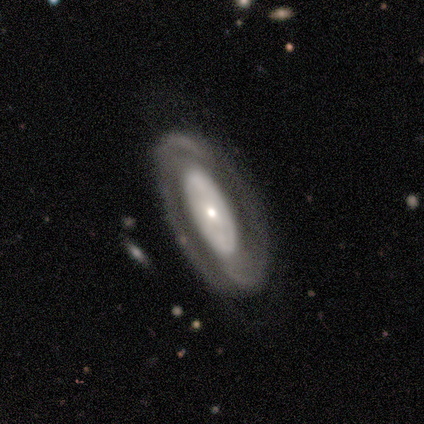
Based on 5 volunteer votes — Q: Smooth or featured?
A: featured or disk (80%); runner-up: star or artifact (20%)
Q: Edge-on disk?
A: no (100%)
Q: Bar?
A: no (100%)
Q: Spiral arms?
A: yes (75%); runner-up: no (25%)
Q: Spiral winding?
A: loose (67%); runner-up: tight (33%)
Q: Spiral arm count?
A: can't tell (67%); runner-up: 2 (33%)
Q: Bulge size?
A: small (50%); runner-up: dominant (25%)
Q: Merging?
A: none (75%); runner-up: major disturbance (25%)